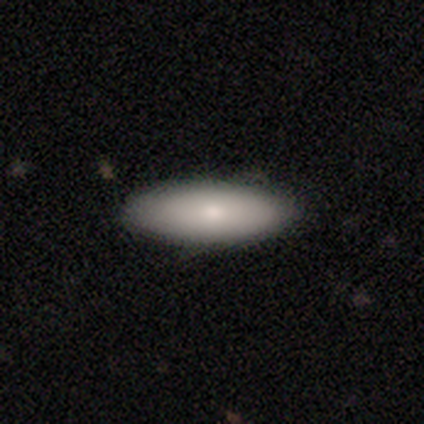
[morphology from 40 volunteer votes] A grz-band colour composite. It shows a smooth galaxy with no disk features (82%) that is in between round and cigar-shaped (67%). Merging: none (88%).